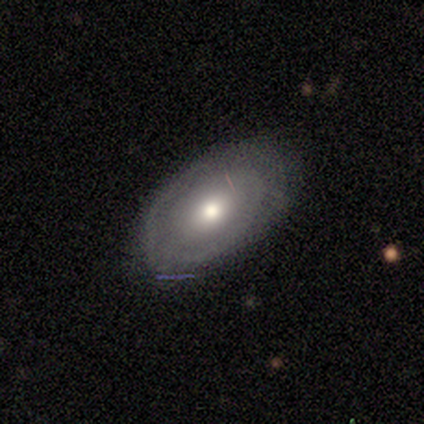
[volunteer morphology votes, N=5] Smooth or featured?
  - smooth: 80% *
  - star or artifact: 20%
  - featured or disk: 0%
How rounded?
  - in between: 75% *
  - round: 25%
  - cigar-shaped: 0%
Merging?
  - none: 75% *
  - major disturbance: 25%
  - minor disturbance: 0%
  - merger: 0%